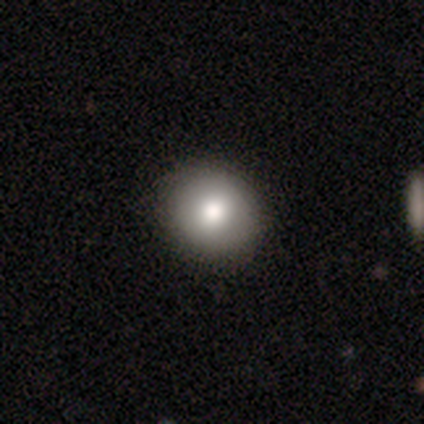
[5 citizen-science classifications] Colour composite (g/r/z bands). It shows a smooth galaxy with no disk features (80%) that is round (50%, tied with in between). Merging: none (60%).